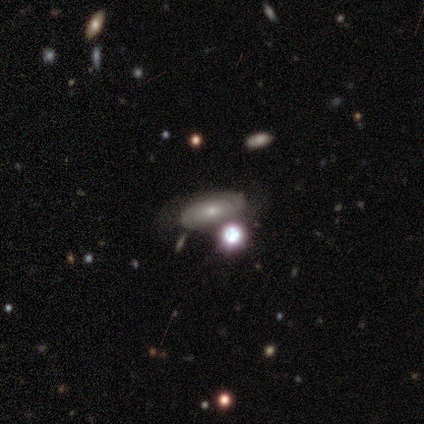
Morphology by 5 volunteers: Volunteers were most divided on "smooth or featured": star or artifact: 60%, featured or disk: 40%, smooth: 0%.